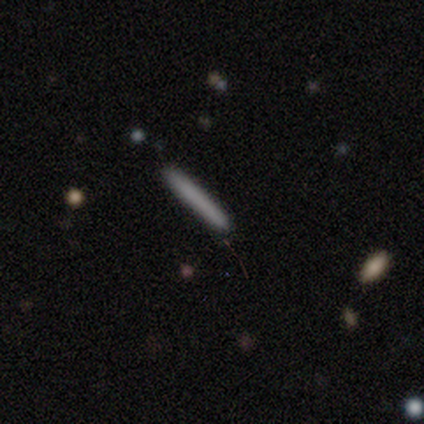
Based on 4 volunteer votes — smooth_or_featured: smooth (p=1.00)
how_rounded: cigar-shaped (p=1.00)
merging: none (p=0.75) [alt: minor disturbance p=0.25]